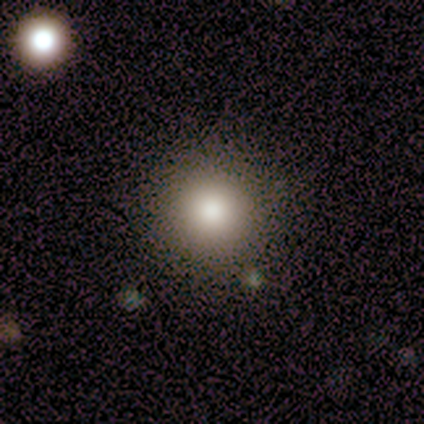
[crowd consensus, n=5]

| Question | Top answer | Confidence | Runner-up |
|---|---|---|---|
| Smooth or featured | smooth | 60% | featured or disk (20%) |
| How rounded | round | 100% | — |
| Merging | none | 100% | — |